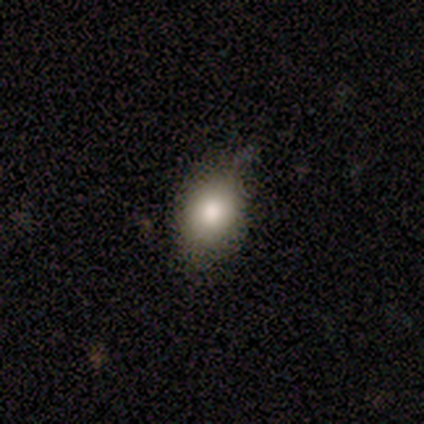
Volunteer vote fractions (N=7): Smooth or featured? smooth (86%)
How rounded? in between (100%)
Merging? none (57%)